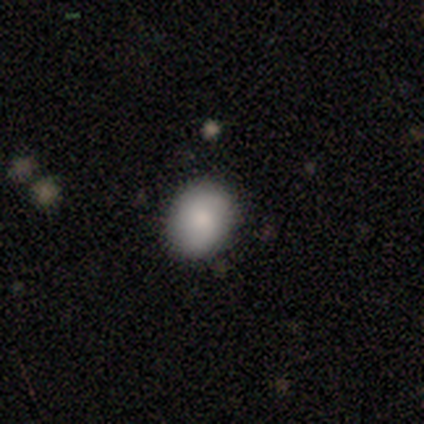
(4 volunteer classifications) Smooth or featured: smooth — 100%
How rounded: round — 75% (in between — 25%)
Merging: none — 75% (minor disturbance — 25%)